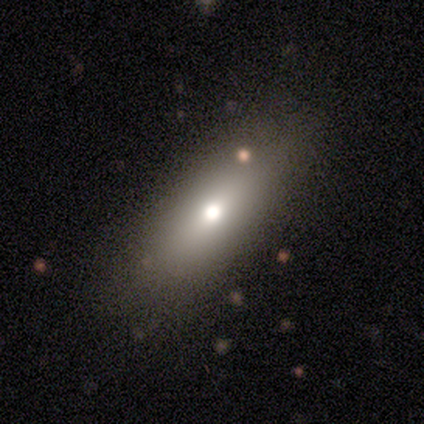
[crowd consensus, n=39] Q: Smooth or featured?
A: smooth (77%); runner-up: featured or disk (13%)
Q: How rounded?
A: in between (70%); runner-up: cigar-shaped (27%)
Q: Merging?
A: none (66%); runner-up: minor disturbance (29%)